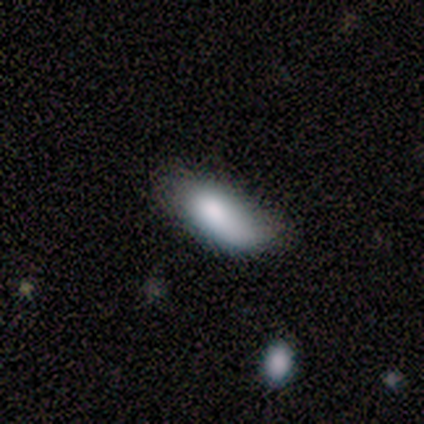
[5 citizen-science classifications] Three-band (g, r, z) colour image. It shows a smooth galaxy with no disk features (100%) that is in between round and cigar-shaped (100%). Merging: minor disturbance (60%).